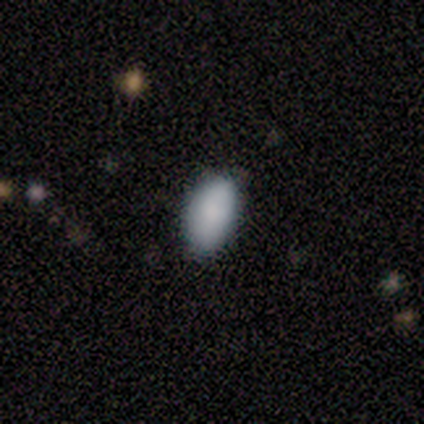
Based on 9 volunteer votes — Smooth or featured? 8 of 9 (89%) said smooth. How rounded? 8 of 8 (100%) said in between. Merging? 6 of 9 (67%) said none.